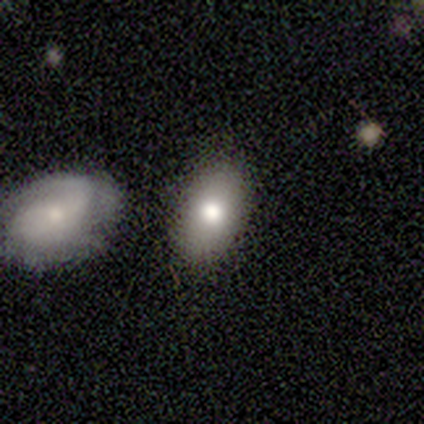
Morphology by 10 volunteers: Smooth or featured? smooth (90%)
How rounded? in between (100%)
Merging? none (60%)